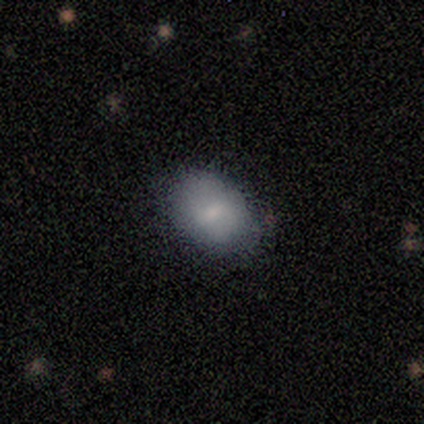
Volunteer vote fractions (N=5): A featured or disk galaxy (60%) with no bar (67%), no spiral arms (100%) and a moderate central bulge (33%, tied with small and none).

Vote fractions:
- Smooth or featured? featured or disk: 60% / smooth: 20% / star or artifact: 20%
- Edge-on disk? no: 100% / yes: 0%
- Bar? no: 67% / weak: 33% / strong: 0%
- Spiral arms? no: 100% / yes: 0%
- Bulge size? moderate: 33% (tied) / small: 33% (tied) / none: 33% (tied) / dominant: 0% / large: 0%
- Merging? none: 100% / minor disturbance: 0% / major disturbance: 0% / merger: 0%